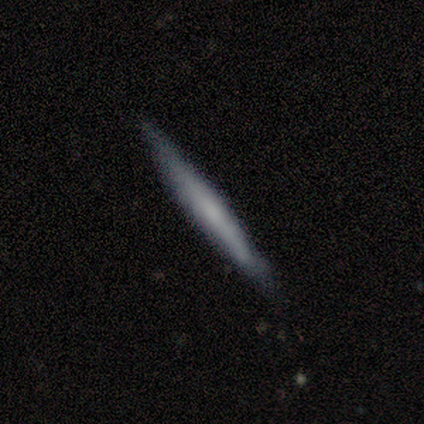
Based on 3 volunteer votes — Smooth or featured: featured or disk — 67% (smooth — 33%)
Edge-on disk: yes — 100%
Edge-on bulge: rounded — 100%
Merging: none — 100%